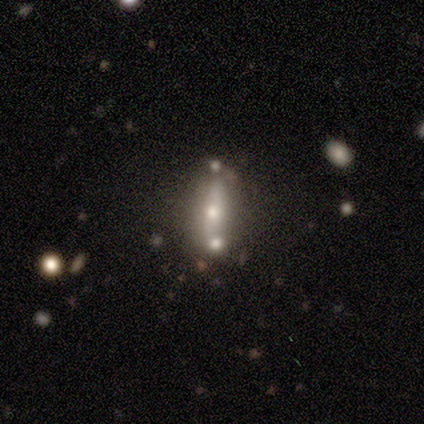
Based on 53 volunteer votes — Smooth or featured? featured or disk (49%)
Edge-on disk? no (54%)
Bar? no (64%)
Spiral arms? no (93%)
Bulge size? moderate (64%)
Merging? none (41%)